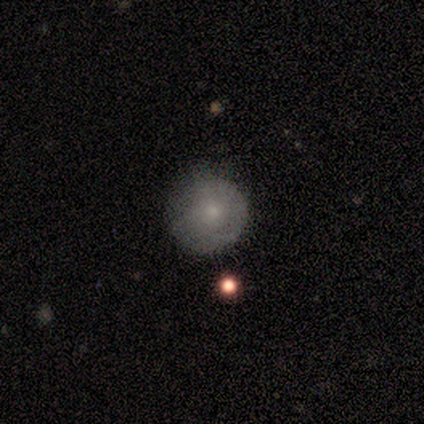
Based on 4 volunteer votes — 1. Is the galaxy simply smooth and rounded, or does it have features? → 100% smooth, 0% featured or disk, 0% star or artifact.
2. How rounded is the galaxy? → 100% round, 0% in between, 0% cigar-shaped.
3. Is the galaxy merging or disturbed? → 100% none, 0% minor disturbance, 0% major disturbance, 0% merger.